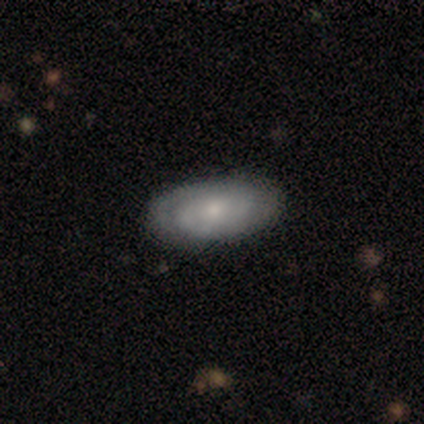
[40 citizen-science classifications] This appears to be a featured or disk galaxy (57%) with no bar (86%), tight (70%) spiral arms (91%) and a small central bulge (68%). Merging: none (89%).